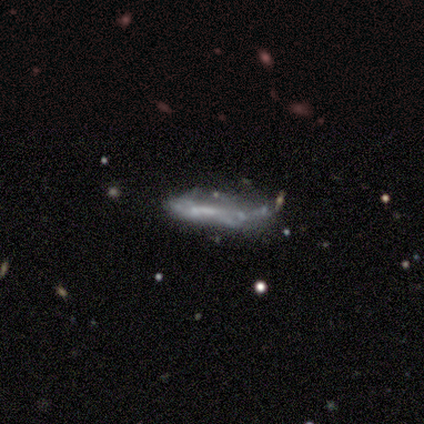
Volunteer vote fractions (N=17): Smooth or featured?
  - featured or disk: 65% *
  - smooth: 24%
  - star or artifact: 12%
Edge-on disk?
  - no: 73% *
  - yes: 27%
Bar?
  - weak: 50% *
  - no: 38%
  - strong: 12%
Spiral arms?
  - no: 88% *
  - yes: 12%
Bulge size?
  - none: 88% *
  - moderate: 12%
  - dominant: 0%
  - large: 0%
  - small: 0%
Merging?
  - minor disturbance: 53% *
  - major disturbance: 27%
  - none: 13%
  - merger: 7%